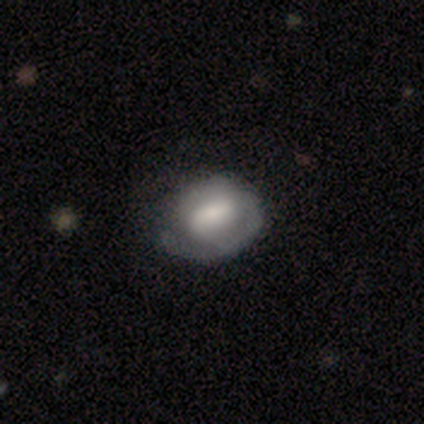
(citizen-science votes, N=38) This appears to be a smooth galaxy with no disk features (50%) that is in between round and cigar-shaped (58%). Merging: none (57%).